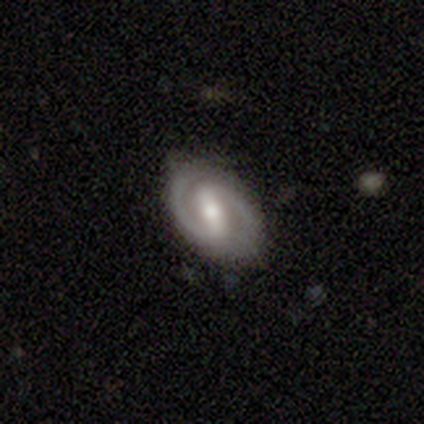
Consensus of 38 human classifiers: Morphology: type=featured or disk (89%); edge-on=no (97%); bar=strong (52%); spiral arms=yes (97%); winding=medium (56%); arm count=2 (97%); bulge=moderate (58%); merging=none (91%).